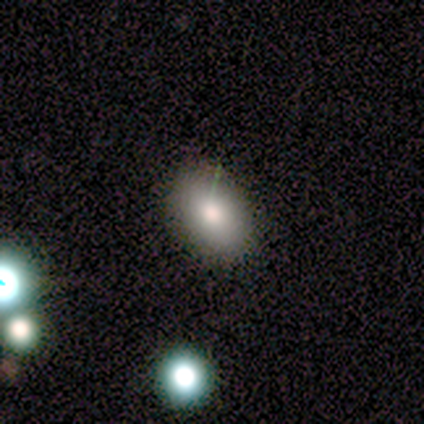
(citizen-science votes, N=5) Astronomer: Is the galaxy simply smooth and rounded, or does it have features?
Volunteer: smooth — 80%.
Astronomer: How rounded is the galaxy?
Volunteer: round — 50%, tied with in between at 50%.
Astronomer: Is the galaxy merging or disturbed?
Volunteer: none — 75%.